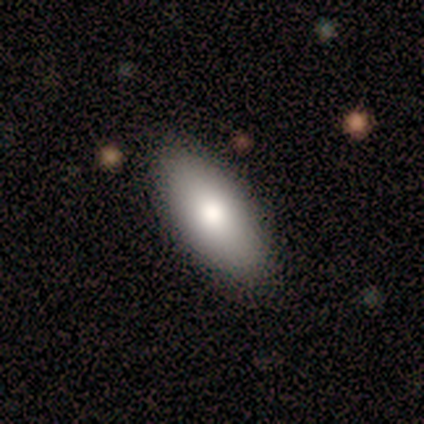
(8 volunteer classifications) Smooth or featured: smooth — 88% (featured or disk — 12%)
How rounded: in between — 86% (cigar-shaped — 14%)
Merging: none — 100%